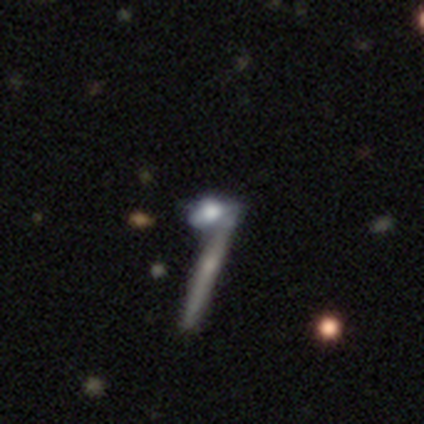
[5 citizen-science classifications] featured or disk 60%, smooth 40%, star or artifact 0%. Down the decision tree: edge-on disk — yes (100%); edge-on bulge — rounded (67%); merging — none (60%).